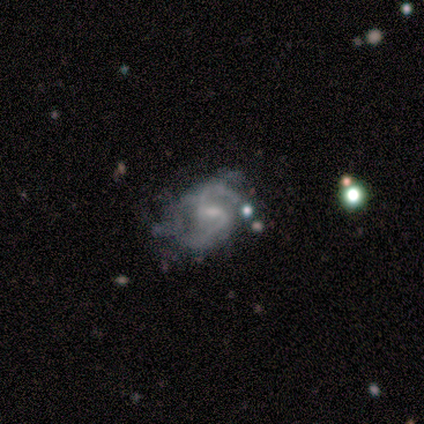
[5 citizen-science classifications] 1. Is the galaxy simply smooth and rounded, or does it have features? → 100% featured or disk, 0% smooth, 0% star or artifact.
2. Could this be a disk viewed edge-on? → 100% no, 0% yes.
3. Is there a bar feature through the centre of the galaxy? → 60% weak, 20% strong, 20% no.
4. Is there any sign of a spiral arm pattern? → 100% yes, 0% no.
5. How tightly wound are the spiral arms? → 60% loose, 40% medium, 0% tight.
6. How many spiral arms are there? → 80% 2, 20% can't tell, 0% 1, 0% 3, 0% 4, 0% more than 4.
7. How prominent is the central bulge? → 80% small, 20% none, 0% dominant, 0% large, 0% moderate.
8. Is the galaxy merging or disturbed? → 80% none, 20% minor disturbance, 0% major disturbance, 0% merger.